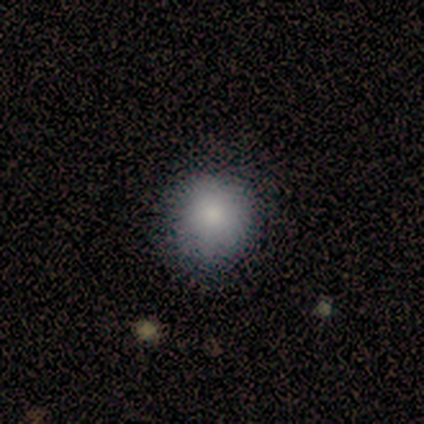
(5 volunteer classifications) This is clearly a smooth galaxy (80%). How rounded: likely round (75%). Merging: likely none (75%).